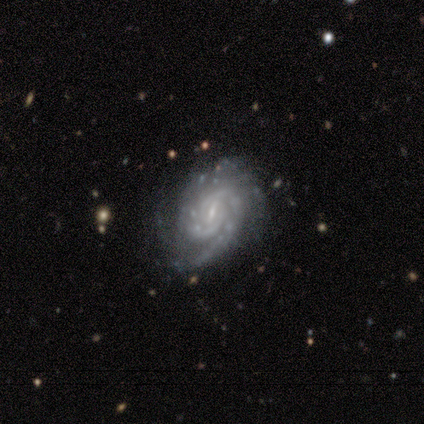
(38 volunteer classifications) Smooth or featured: featured or disk — 97% (smooth — 3%)
Edge-on disk: no — 95% (yes — 5%)
Bar: weak — 66% (no — 23%)
Spiral arms: yes — 100%
Spiral winding: tight — 66% (medium — 34%)
Spiral arm count: 2 — 46% (3 — 20%)
Bulge size: small — 80% (moderate — 17%)
Merging: none — 87% (minor disturbance — 11%)